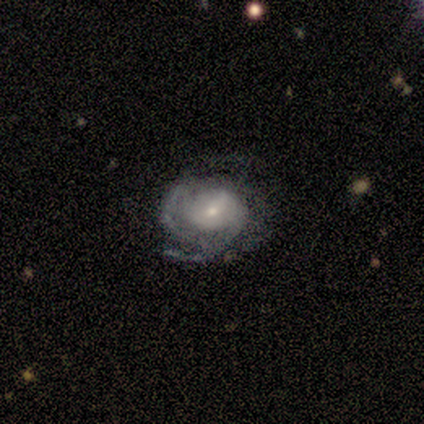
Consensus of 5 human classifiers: Smooth or featured? featured or disk (100%)
Edge-on disk? no (100%)
Bar? weak (40%, tied with no)
Spiral arms? yes (100%)
Spiral winding? tight (60%)
Spiral arm count? 2 (60%)
Bulge size? small (80%)
Merging? minor disturbance (60%)